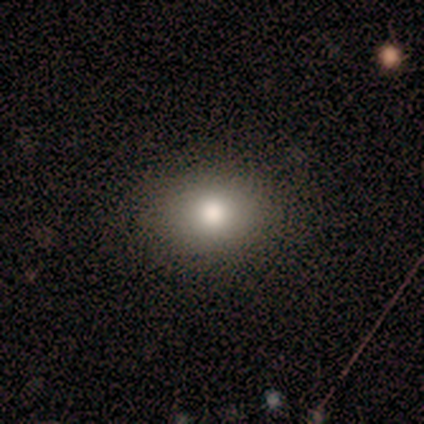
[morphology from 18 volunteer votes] Smooth or featured? 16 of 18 (89%) said smooth. How rounded? 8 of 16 (50%, tied with in between) said round. Merging? 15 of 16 (94%) said none.